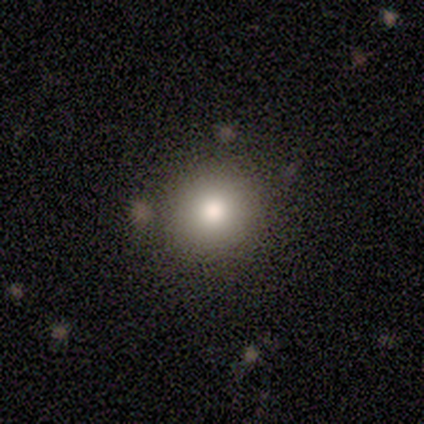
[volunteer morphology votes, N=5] Smooth or featured?
  - smooth: 100% *
  - featured or disk: 0%
  - star or artifact: 0%
How rounded?
  - round: 100% *
  - in between: 0%
  - cigar-shaped: 0%
Merging?
  - none: 80% *
  - minor disturbance: 20%
  - major disturbance: 0%
  - merger: 0%